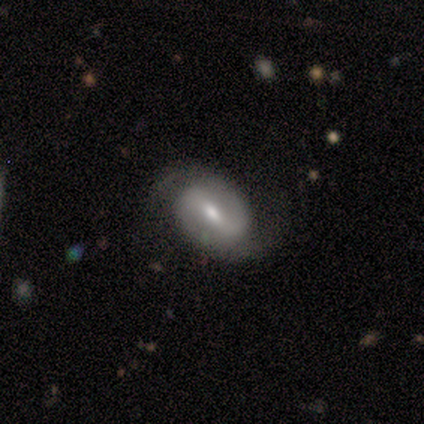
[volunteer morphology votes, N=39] A featured or disk galaxy (72%) with a weak bar (52%), 2 (96%) medium (60%) spiral arms (93%) and a moderate central bulge (63%). Merging: none (59%).